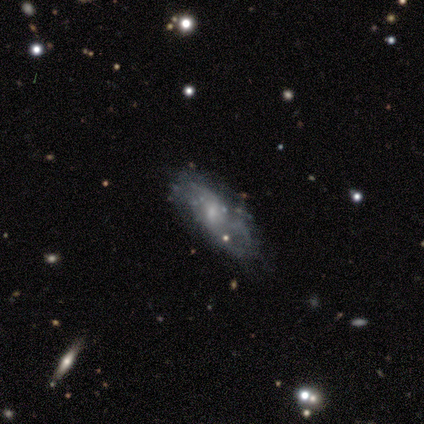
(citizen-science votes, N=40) This is likely a featured or disk galaxy (75%). It is clearly not viewed edge-on (97%). Bar: possibly weak (52%). Spiral arm pattern: likely yes (62%). Spiral arm count: possibly 2 (56%). Spiral winding: possibly loose (56%). Central bulge: likely small (62%). Merging: possibly none (48%).